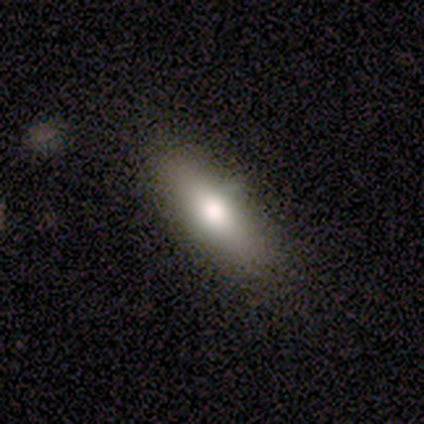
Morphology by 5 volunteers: A featured or disk galaxy (60%) viewed edge-on (67%) with a rounded central bulge (100%).

Vote fractions:
- Smooth or featured? featured or disk: 60% / smooth: 40% / star or artifact: 0%
- Edge-on disk? yes: 67% / no: 33%
- Edge-on bulge? rounded: 100% / boxy: 0% / none: 0%
- Merging? none: 80% / minor disturbance: 20% / major disturbance: 0% / merger: 0%